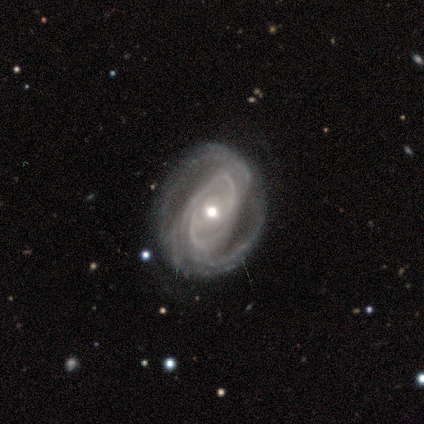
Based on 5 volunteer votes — smooth-or-featured: featured or disk: 100% | smooth: 0% | star or artifact: 0%
  disk-edge-on: no: 100% | yes: 0%
    bar: no: 100% | strong: 0% | weak: 0%
    has-spiral-arms: yes: 100% | no: 0%
      spiral-winding: tight: 60% | loose: 40% | medium: 0%
      spiral-arm-count: can't tell: 60% | 2: 40% | 1: 0% | 3: 0% | 4: 0% | more than 4: 0%
    bulge-size: moderate: 80% | small: 20% | dominant: 0% | large: 0% | none: 0%
  merging: none: 80% | minor disturbance: 20% | major disturbance: 0% | merger: 0%